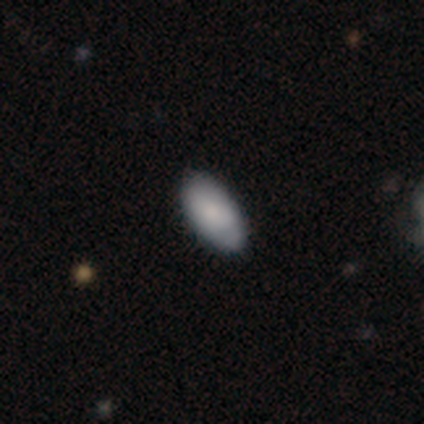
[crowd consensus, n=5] A smooth galaxy with no disk features (100%) that is in between round and cigar-shaped (100%).

Vote fractions:
- Smooth or featured? smooth: 100% / featured or disk: 0% / star or artifact: 0%
- How rounded? in between: 100% / round: 0% / cigar-shaped: 0%
- Merging? none: 80% / minor disturbance: 20% / major disturbance: 0% / merger: 0%